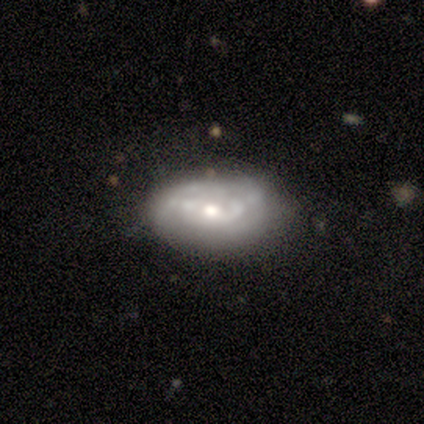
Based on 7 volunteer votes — Volunteers were most divided on "spiral arm count" (2-way tie): 2: 50%, can't tell: 50%, 1: 0%, 3: 0%, 4: 0%, more than 4: 0%. More confident: edge-on disk — no (100%); bulge size — moderate (100%); bar — no (80%); spiral arms — yes (80%); spiral winding — tight (75%); smooth or featured — featured or disk (71%); merging — none (57%).